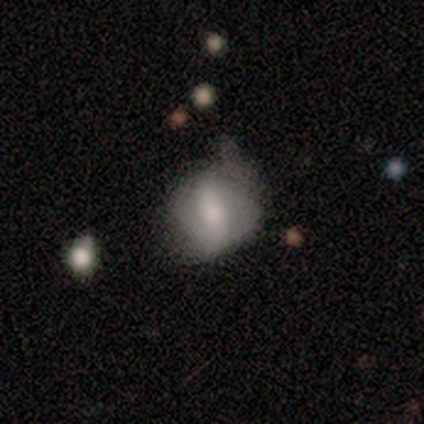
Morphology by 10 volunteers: smooth 60%, featured or disk 40%, star or artifact 0%. Down the decision tree: how rounded — round (50%, tied with in between); merging — none (60%).